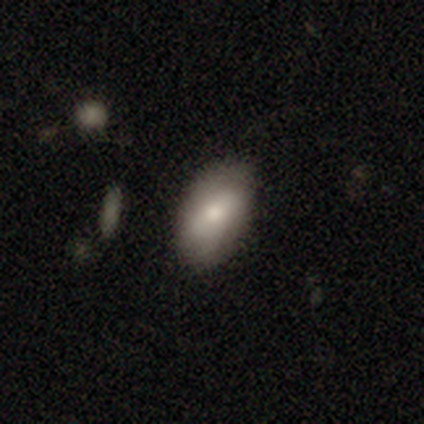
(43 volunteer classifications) Morphology: type=smooth (67%); roundness=in between (97%); merging=none (74%).